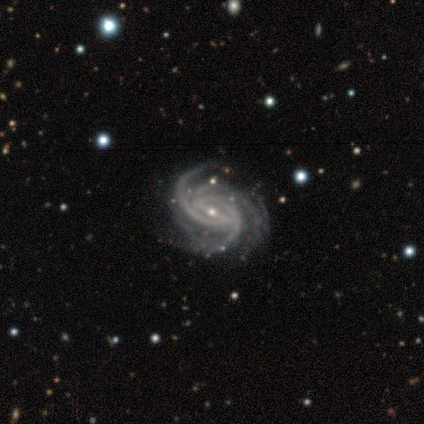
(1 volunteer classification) A featured or disk galaxy (100%) with a weak bar (100%), 3 (100%) tight (100%) spiral arms (100%) and a moderate central bulge (100%).

Vote fractions:
- Smooth or featured? featured or disk: 100% / smooth: 0% / star or artifact: 0%
- Edge-on disk? no: 100% / yes: 0%
- Bar? weak: 100% / strong: 0% / no: 0%
- Spiral arms? yes: 100% / no: 0%
- Spiral winding? tight: 100% / medium: 0% / loose: 0%
- Spiral arm count? 3: 100% / 1: 0% / 2: 0% / 4: 0% / more than 4: 0% / can't tell: 0%
- Bulge size? moderate: 100% / dominant: 0% / large: 0% / small: 0% / none: 0%
- Merging? minor disturbance: 100% / none: 0% / major disturbance: 0% / merger: 0%